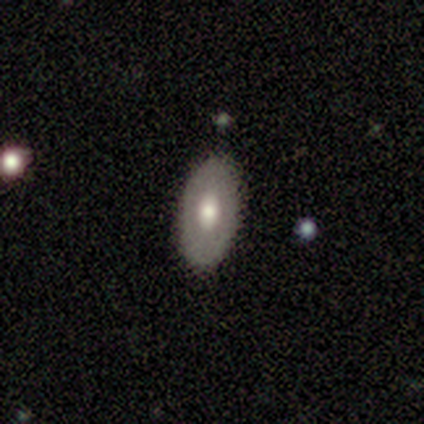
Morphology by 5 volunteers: smooth-or-featured: featured or disk: 60% | smooth: 40% | star or artifact: 0%
  disk-edge-on: no: 100% | yes: 0%
    bar: no: 67% | weak: 33% | strong: 0%
    has-spiral-arms: no: 67% | yes: 33%
    bulge-size: moderate: 100% | dominant: 0% | large: 0% | small: 0% | none: 0%
  merging: none: 100% | minor disturbance: 0% | major disturbance: 0% | merger: 0%